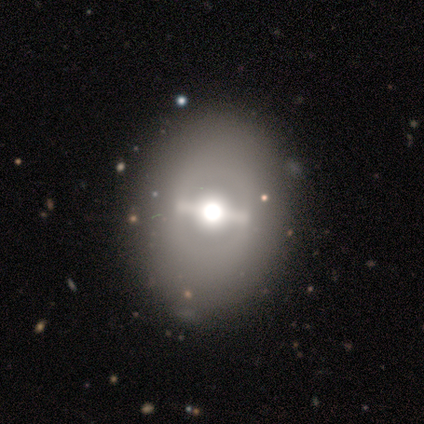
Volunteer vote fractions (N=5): A featured or disk galaxy (80%) viewed edge-on (50%, tied with no) with a rounded central bulge (100%).

Vote fractions:
- Smooth or featured? featured or disk: 80% / star or artifact: 20% / smooth: 0%
- Edge-on disk? yes: 50% (tied) / no: 50% (tied)
- Edge-on bulge? rounded: 100% / boxy: 0% / none: 0%
- Merging? none: 75% / minor disturbance: 25% / major disturbance: 0% / merger: 0%